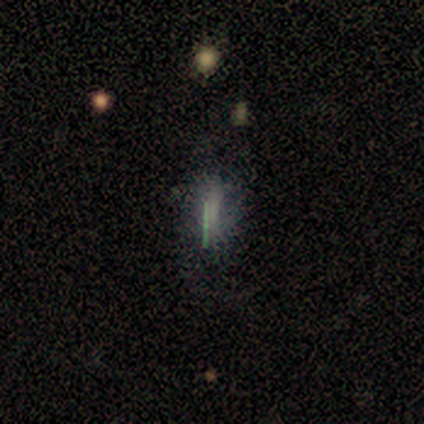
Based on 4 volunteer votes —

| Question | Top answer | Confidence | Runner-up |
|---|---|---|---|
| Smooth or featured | smooth | 50% | tied: featured or disk (50%) |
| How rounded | in between | 100% | — |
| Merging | none | 50% | minor disturbance (25%) |